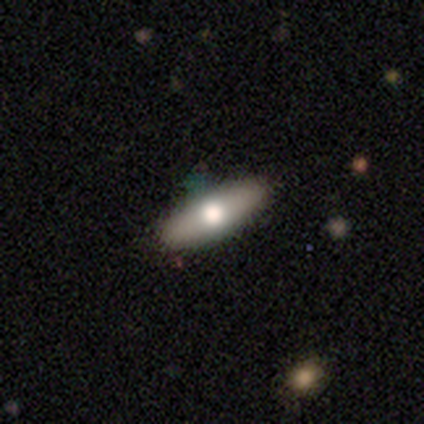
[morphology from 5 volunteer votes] Q: Smooth or featured?
A: smooth (80%); runner-up: featured or disk (20%)
Q: How rounded?
A: in between (50%); tied with: cigar-shaped (50%)
Q: Merging?
A: none (80%); runner-up: minor disturbance (20%)